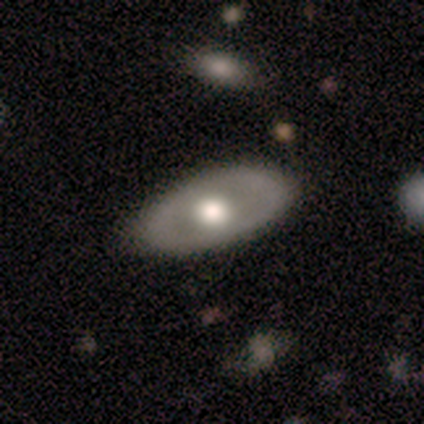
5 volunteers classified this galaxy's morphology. type=smooth (60%); roundness=in between (100%); merging=none (80%).